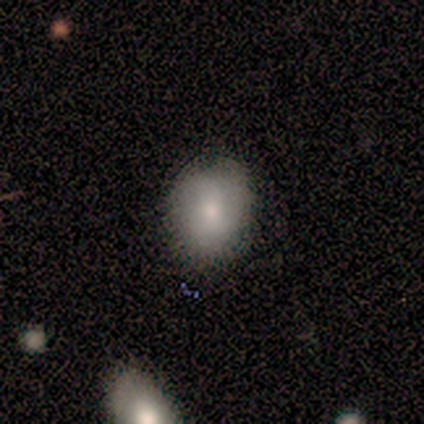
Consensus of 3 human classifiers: Morphology: type=featured or disk (67%); edge-on=no (100%); bar=no (100%); spiral arms=yes (50%, tied with no); winding=loose (100%); arm count=2 (100%); bulge=small (50%, tied with none); merging=none (33%, tied with major disturbance and merger).